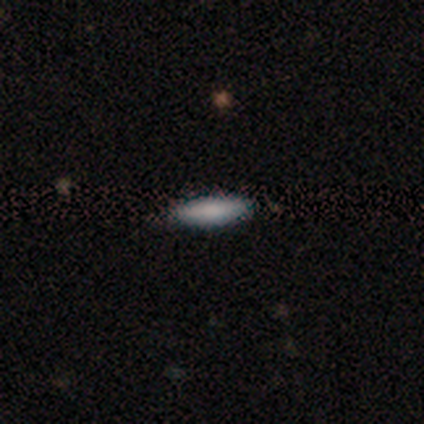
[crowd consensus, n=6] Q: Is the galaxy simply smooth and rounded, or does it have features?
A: smooth — 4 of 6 (67%).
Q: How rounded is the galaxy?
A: cigar-shaped — 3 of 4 (75%).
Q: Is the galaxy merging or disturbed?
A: none — 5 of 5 (100%).